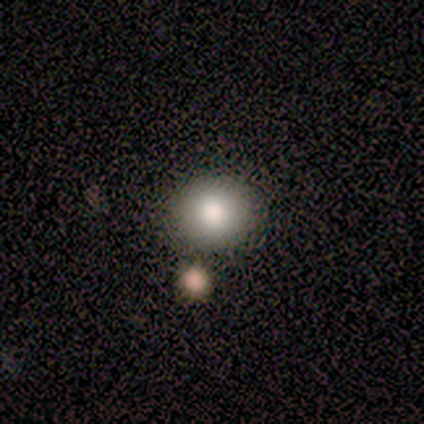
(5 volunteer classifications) Smooth or featured? smooth (100%)
How rounded? round (100%)
Merging? none (80%)